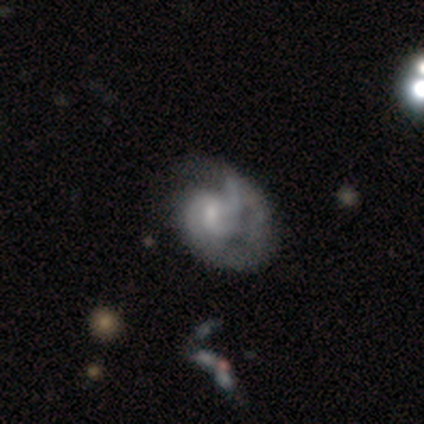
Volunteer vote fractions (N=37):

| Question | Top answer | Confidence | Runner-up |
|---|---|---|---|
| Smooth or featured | featured or disk | 81% | smooth (16%) |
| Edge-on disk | no | 100% | — |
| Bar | no | 50% | weak (47%) |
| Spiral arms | yes | 97% | no (3%) |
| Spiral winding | medium | 45% | tight (34%) |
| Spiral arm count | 2 | 41% | can't tell (28%) |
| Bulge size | moderate | 50% | none (27%) |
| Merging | none | 44% | major disturbance (42%) |